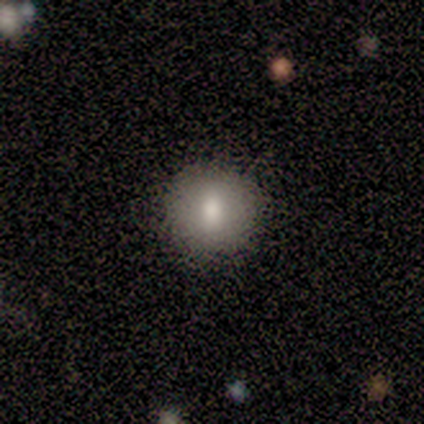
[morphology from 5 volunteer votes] smooth-or-featured: smooth: 100% | featured or disk: 0% | star or artifact: 0%
  how-rounded: round: 100% | in between: 0% | cigar-shaped: 0%
  merging: none: 80% | minor disturbance: 20% | major disturbance: 0% | merger: 0%